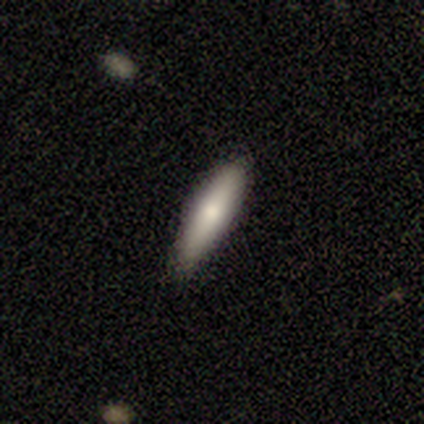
Smooth or featured: smooth — 50% (featured or disk — 33%)
How rounded: cigar-shaped — 67% (in between — 33%)
Merging: none — 100%